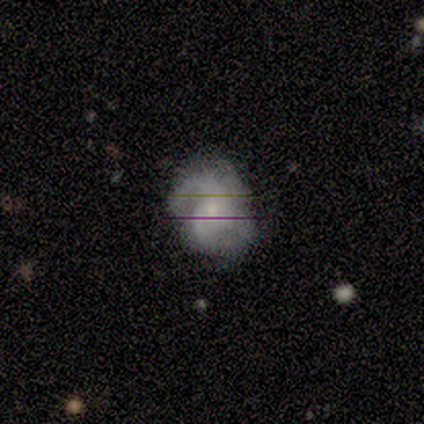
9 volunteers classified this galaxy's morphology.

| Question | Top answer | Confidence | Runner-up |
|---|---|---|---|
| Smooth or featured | featured or disk | 89% | smooth (11%) |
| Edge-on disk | no | 100% | — |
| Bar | no | 88% | weak (12%) |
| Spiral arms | yes | 100% | — |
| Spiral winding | medium | 50% | tight (25%) |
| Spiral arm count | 3 | 50% | 2 (25%) |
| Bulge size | small | 62% | moderate (38%) |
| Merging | none | 89% | minor disturbance (11%) |